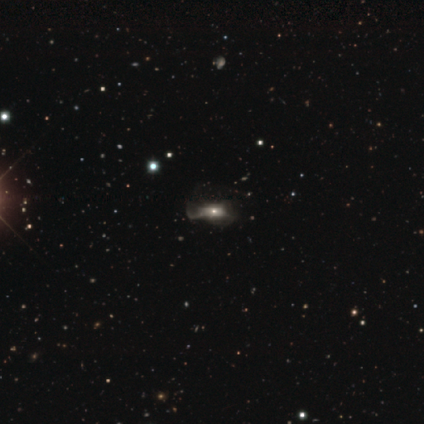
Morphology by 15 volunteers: A featured or disk galaxy (60%) with no bar (100%), no spiral arms (71%) and a moderate central bulge (43%). Merging: major disturbance (64%).